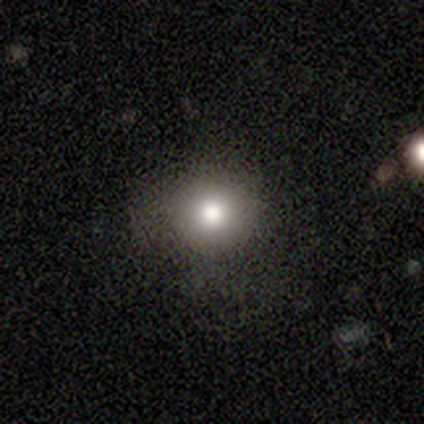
Overall: smooth (60%; featured or disk 40%). How rounded: round (100%). Merging: none (100%).